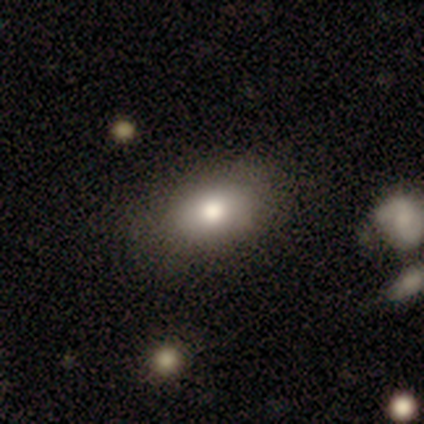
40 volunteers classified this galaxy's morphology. type=smooth (75%); roundness=in between (97%); merging=none (78%).